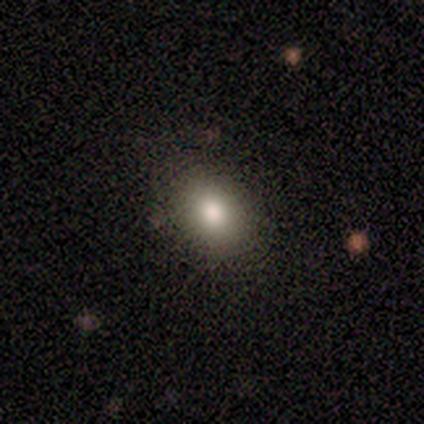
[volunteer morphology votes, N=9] A smooth galaxy with no disk features (89%) that is in between round and cigar-shaped (62%).

Vote fractions:
- Smooth or featured? smooth: 89% / star or artifact: 11% / featured or disk: 0%
- How rounded? in between: 62% / round: 38% / cigar-shaped: 0%
- Merging? none: 100% / minor disturbance: 0% / major disturbance: 0% / merger: 0%